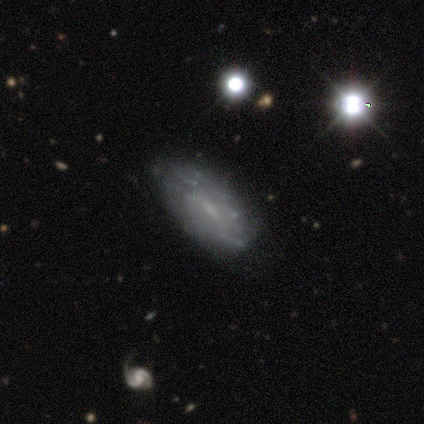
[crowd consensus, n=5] Morphology: type=smooth (60%); roundness=in between (100%); merging=minor disturbance (60%).